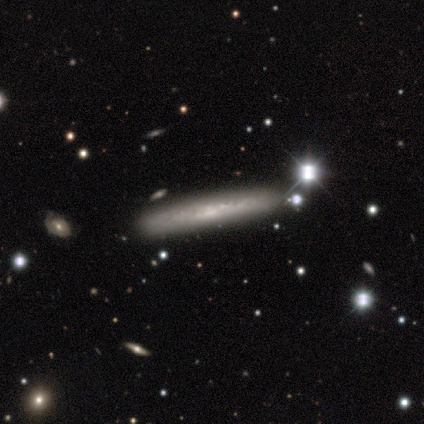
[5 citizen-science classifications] featured or disk 80%, smooth 20%, star or artifact 0%. Down the decision tree: edge-on disk — yes (100%); edge-on bulge — none (50%); merging — none (100%).